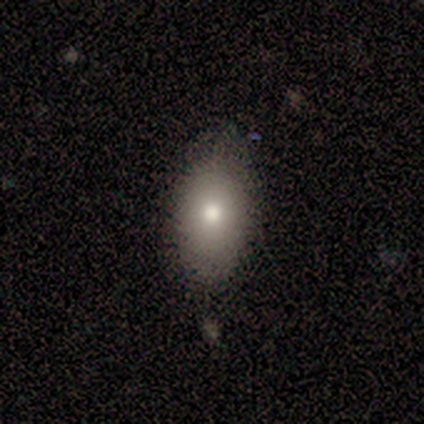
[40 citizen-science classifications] smooth 72%, featured or disk 18%, star or artifact 10%. Down the decision tree: how rounded — in between (93%); merging — none (69%).